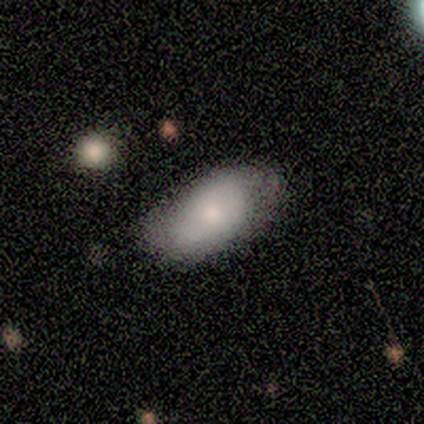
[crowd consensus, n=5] smooth 60%, featured or disk 40%, star or artifact 0%. Down the decision tree: how rounded — in between (100%); merging — none (60%).